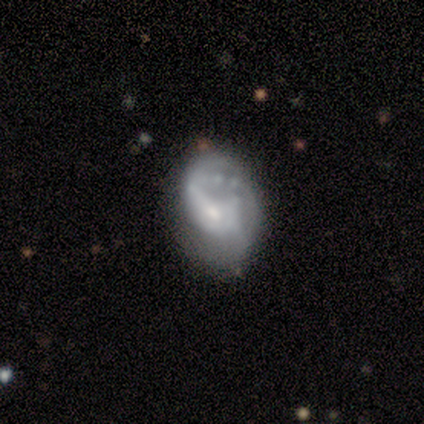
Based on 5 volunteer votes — smooth_or_featured: featured or disk (p=1.00)
disk_edge_on: no (p=1.00)
bar: strong (p=0.40) [tied with: no p=0.40]
has_spiral_arms: yes (p=1.00)
spiral_winding: loose (p=0.60) [alt: tight p=0.40]
spiral_arm_count: 2 (p=0.40) [tied with: can't tell p=0.40]
bulge_size: small (p=0.60) [alt: moderate p=0.40]
merging: none (p=0.60) [alt: major disturbance p=0.20]